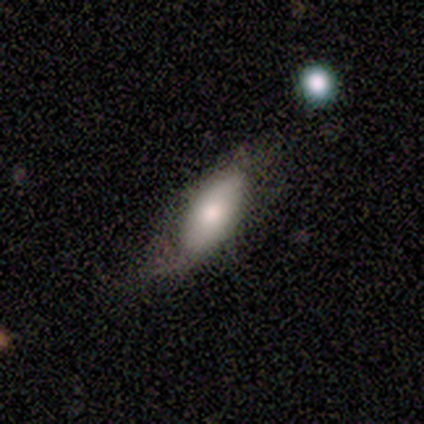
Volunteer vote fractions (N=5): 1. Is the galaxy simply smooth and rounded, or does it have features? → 80% smooth, 20% featured or disk, 0% star or artifact.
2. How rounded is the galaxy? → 100% in between, 0% round, 0% cigar-shaped.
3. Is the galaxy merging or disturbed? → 40% none (tied), 40% minor disturbance (tied), 20% merger, 0% major disturbance.